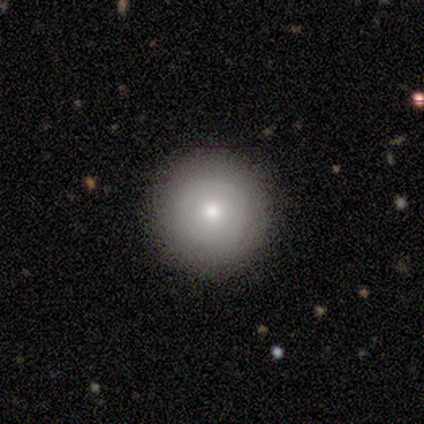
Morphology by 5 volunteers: Q: Smooth or featured?
A: featured or disk (60%); runner-up: smooth (40%)
Q: Edge-on disk?
A: no (100%)
Q: Bar?
A: no (100%)
Q: Spiral arms?
A: no (100%)
Q: Bulge size?
A: large (33%); tied with: moderate (33%); small (33%)
Q: Merging?
A: none (80%); runner-up: minor disturbance (20%)